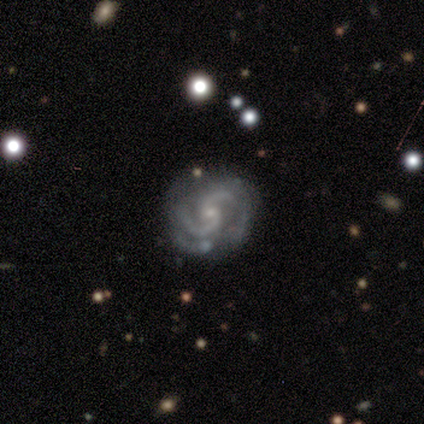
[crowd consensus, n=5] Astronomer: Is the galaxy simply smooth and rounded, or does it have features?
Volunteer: featured or disk — 100%.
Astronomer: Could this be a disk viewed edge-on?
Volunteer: no — 100%.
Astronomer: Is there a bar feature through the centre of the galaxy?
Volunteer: no — 100%.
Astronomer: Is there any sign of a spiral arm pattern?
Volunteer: yes — 80%.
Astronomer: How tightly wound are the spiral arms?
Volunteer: medium — 100%.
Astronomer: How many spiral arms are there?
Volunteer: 2 — 50%.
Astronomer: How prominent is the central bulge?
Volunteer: small — 80%.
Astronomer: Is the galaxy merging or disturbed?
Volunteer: none — 40%, tied with major disturbance at 40%.